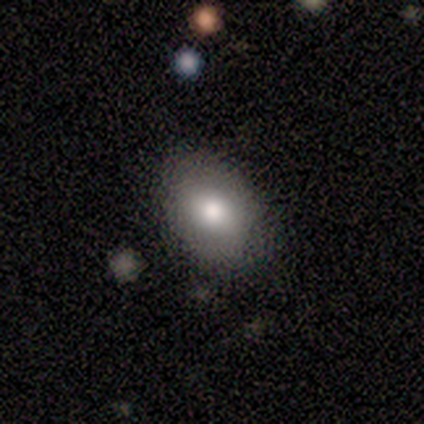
This is likely a featured or disk galaxy (60%). It is clearly not viewed edge-on (100%). Bar: clearly no (100%). Spiral arm pattern: clearly no (100%). Central bulge: likely large (67%). Merging: likely none (60%).